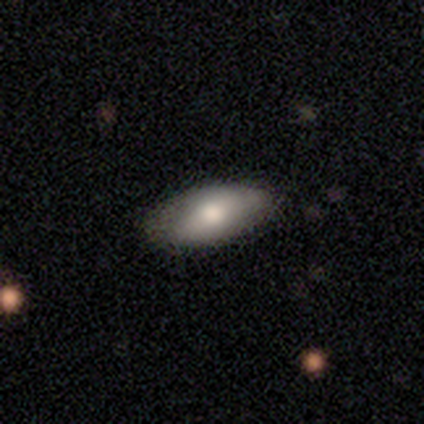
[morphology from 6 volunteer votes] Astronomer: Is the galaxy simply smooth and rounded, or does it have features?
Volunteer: smooth — 50% (runner-up: featured or disk, 33%).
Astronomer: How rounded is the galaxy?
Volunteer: in between — 100%.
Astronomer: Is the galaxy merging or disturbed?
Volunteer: none — 60%.